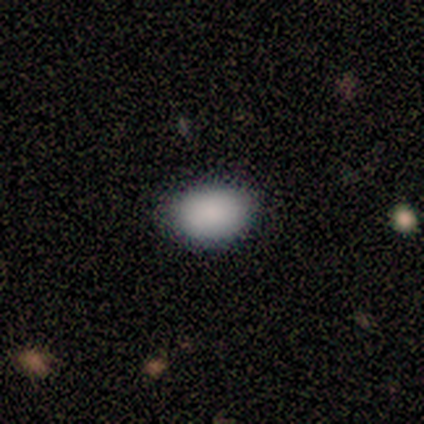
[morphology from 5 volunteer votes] A smooth galaxy with no disk features (80%) that is in between round and cigar-shaped (100%).

Vote fractions:
- Smooth or featured? smooth: 80% / featured or disk: 20% / star or artifact: 0%
- How rounded? in between: 100% / round: 0% / cigar-shaped: 0%
- Merging? none: 80% / minor disturbance: 20% / major disturbance: 0% / merger: 0%